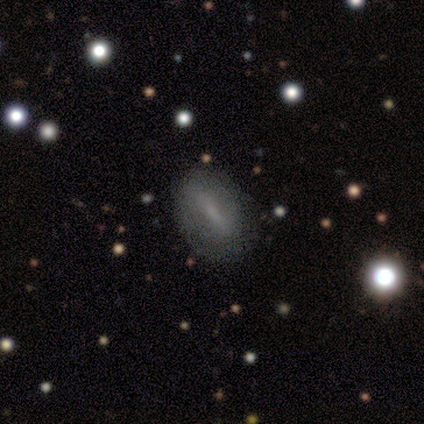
Smooth or featured: smooth — 52% (featured or disk — 38%)
How rounded: in between — 81% (cigar-shaped — 14%)
Merging: none — 83% (minor disturbance — 11%)